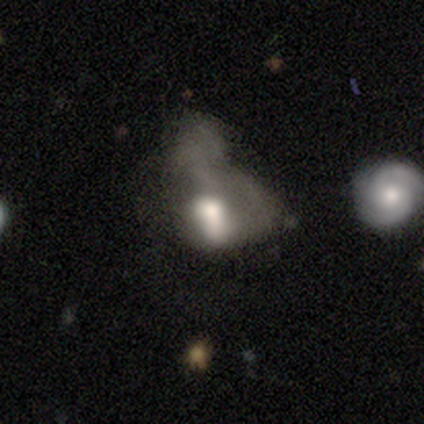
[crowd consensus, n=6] smooth-or-featured: featured or disk: 67% | smooth: 33% | star or artifact: 0%
  disk-edge-on: no: 100% | yes: 0%
    bar: no: 75% | weak: 25% | strong: 0%
    has-spiral-arms: no: 100% | yes: 0%
    bulge-size: large: 50% (tied) | moderate: 50% (tied) | dominant: 0% | small: 0% | none: 0%
  merging: major disturbance: 100% | none: 0% | minor disturbance: 0% | merger: 0%